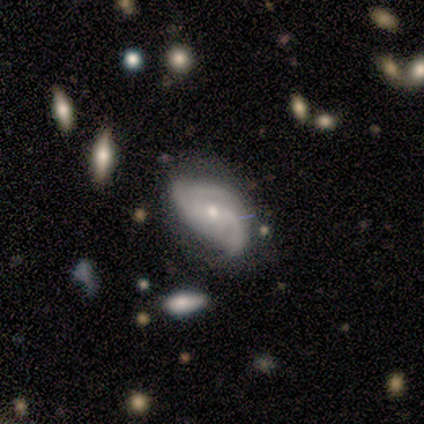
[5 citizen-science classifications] Smooth or featured? featured or disk (60%)
Edge-on disk? no (100%)
Bar? no (100%)
Spiral arms? yes (100%)
Spiral winding? medium (67%)
Spiral arm count? 2 (67%)
Bulge size? small (100%)
Merging? minor disturbance (60%)